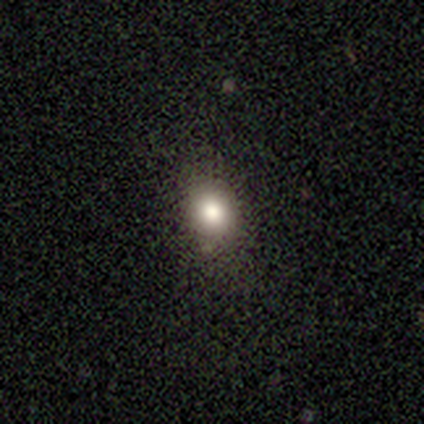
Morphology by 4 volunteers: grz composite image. It shows a smooth galaxy with no disk features (100%) that is round (50%, tied with in between). Merging: none (50%).